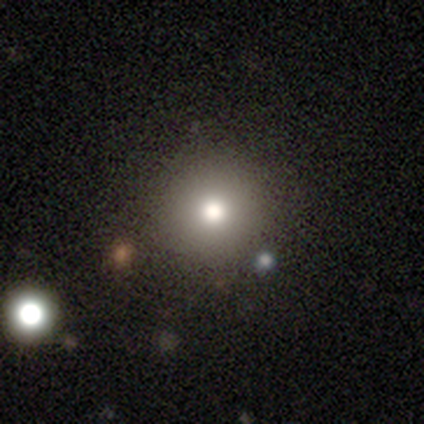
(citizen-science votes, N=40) Smooth or featured? 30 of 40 (75%) said smooth. How rounded? 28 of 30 (93%) said round. Merging? 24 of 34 (71%) said none.